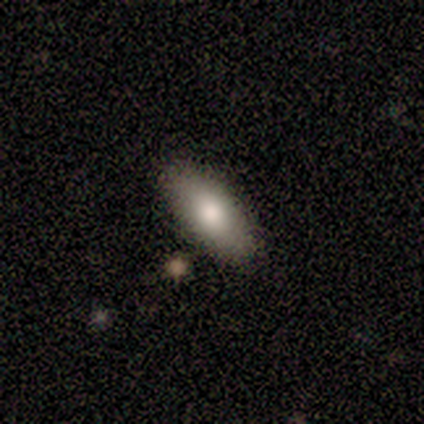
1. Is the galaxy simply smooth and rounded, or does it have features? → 75% smooth, 25% featured or disk, 0% star or artifact.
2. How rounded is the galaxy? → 67% in between, 33% cigar-shaped, 0% round.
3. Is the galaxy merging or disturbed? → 75% none, 25% minor disturbance, 0% major disturbance, 0% merger.